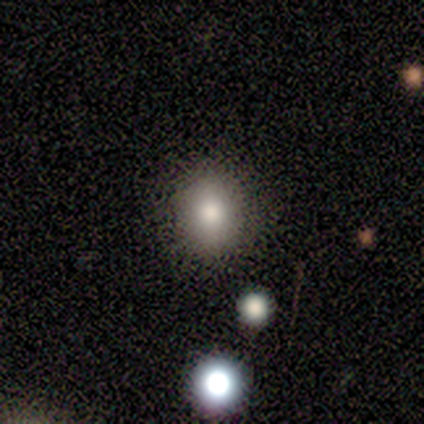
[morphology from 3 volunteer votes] This is likely a smooth galaxy (67%). How rounded: possibly round (50%, tied with in between). Merging: possibly none (50%, tied with minor disturbance).